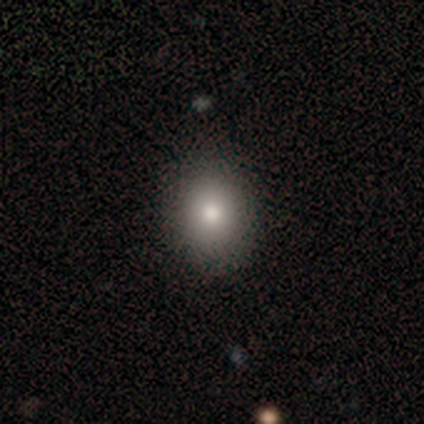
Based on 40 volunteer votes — Smooth or featured?
  - smooth: 70% *
  - featured or disk: 18%
  - star or artifact: 12%
How rounded?
  - round: 50% * (tied)
  - in between: 50% * (tied)
  - cigar-shaped: 0%
Merging?
  - none: 66% *
  - major disturbance: 3%
  - minor disturbance: 0%
  - merger: 0%